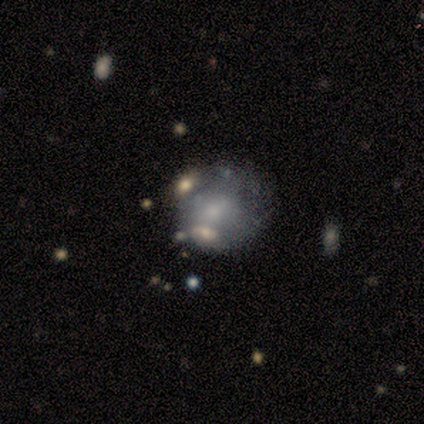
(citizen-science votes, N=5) Q: Smooth or featured?
A: smooth (60%); runner-up: featured or disk (40%)
Q: How rounded?
A: round (67%); runner-up: in between (33%)
Q: Merging?
A: minor disturbance (60%); runner-up: none (20%)